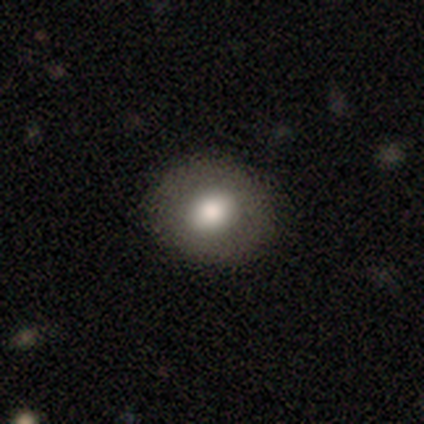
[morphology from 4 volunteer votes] Smooth or featured? 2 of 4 (50%, tied with featured or disk) said smooth. How rounded? 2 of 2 (100%) said in between. Merging? 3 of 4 (75%) said none.